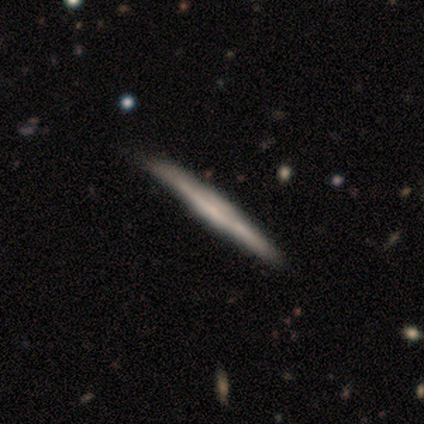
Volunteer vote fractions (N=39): Smooth or featured?
  - featured or disk: 69% *
  - smooth: 31%
  - star or artifact: 0%
Edge-on disk?
  - yes: 100% *
  - no: 0%
Edge-on bulge?
  - none: 44% *
  - boxy: 37%
  - rounded: 19%
Merging?
  - none: 54% *
  - minor disturbance: 15%
  - merger: 3%
  - major disturbance: 0%